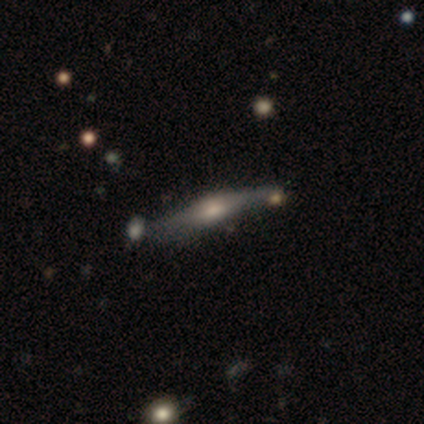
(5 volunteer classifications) A featured or disk galaxy (40%, tied with star or artifact) viewed edge-on (50%, tied with no) with a boxy central bulge (100%). Merging: merger (67%).